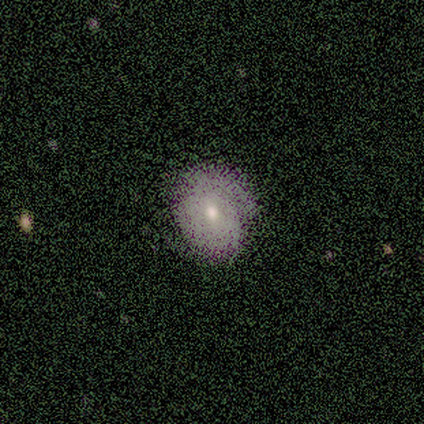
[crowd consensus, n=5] Smooth or featured? 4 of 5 (80%) said smooth. How rounded? 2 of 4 (50%, tied with in between) said round. Merging? 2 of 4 (50%) said none.